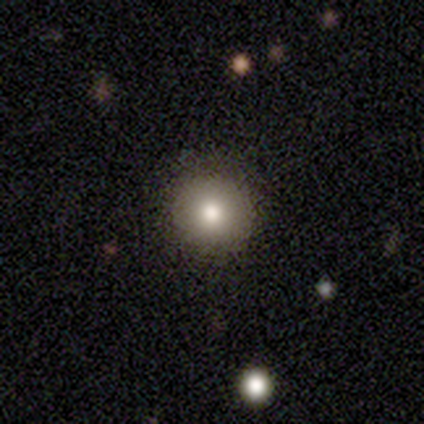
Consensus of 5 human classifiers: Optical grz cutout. It shows a smooth galaxy with no disk features (60%) that is round (67%). Merging: none (67%).